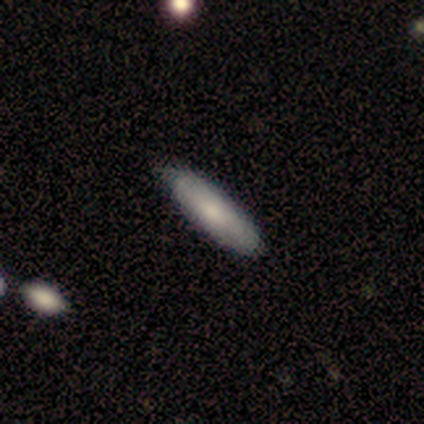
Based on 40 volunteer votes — Volunteers were most divided on "how rounded": cigar-shaped: 61%, in between: 36%, round: 4%. More confident: merging — none (82%); smooth or featured — smooth (70%).